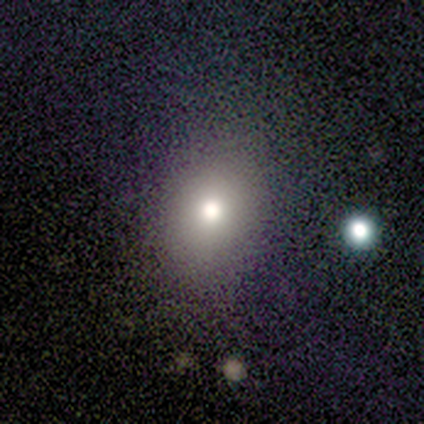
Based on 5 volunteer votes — A smooth galaxy with no disk features (80%) that is round (50%, tied with in between). Merging: none (50%, tied with minor disturbance).